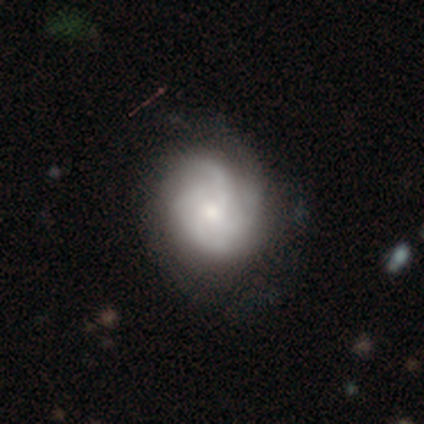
This is clearly a featured or disk galaxy (82%). It is clearly not viewed edge-on (100%). Bar: likely no (78%). Spiral arm pattern: clearly yes (94%). Spiral arm count: possibly 4 (46%). Spiral winding: marginally tight (43%, tied with medium). Central bulge: possibly small (49%). Merging: likely none (73%).